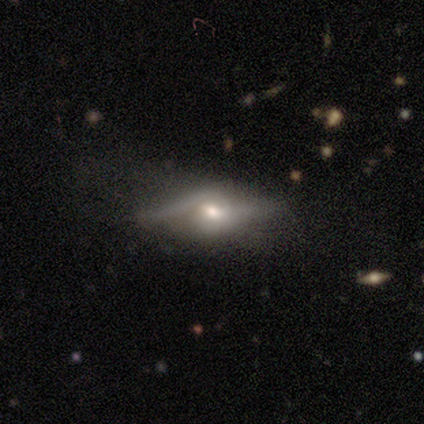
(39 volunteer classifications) A featured or disk galaxy (74%) with no bar (59%), 2 (80%) loose (73%) spiral arms (68%) and a moderate central bulge (77%). Merging: none (38%).